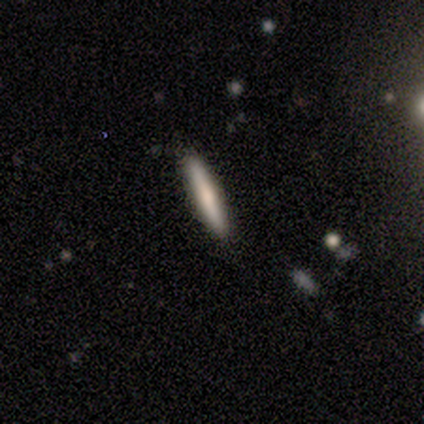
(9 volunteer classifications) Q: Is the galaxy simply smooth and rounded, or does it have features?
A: featured or disk — 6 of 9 (67%).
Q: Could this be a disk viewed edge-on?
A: yes — 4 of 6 (67%).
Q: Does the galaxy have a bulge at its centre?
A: rounded — 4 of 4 (100%).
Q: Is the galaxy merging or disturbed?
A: none — 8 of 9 (89%).